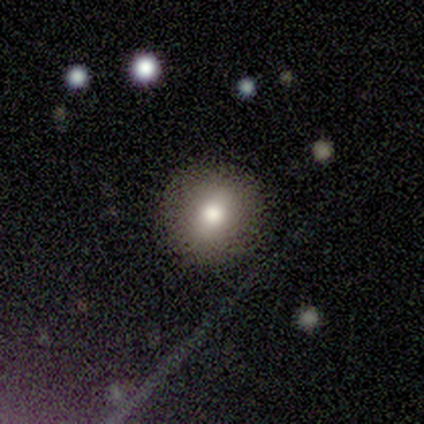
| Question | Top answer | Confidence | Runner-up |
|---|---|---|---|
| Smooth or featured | smooth | 80% | star or artifact (20%) |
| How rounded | round | 100% | — |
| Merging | none | 75% | merger (25%) |